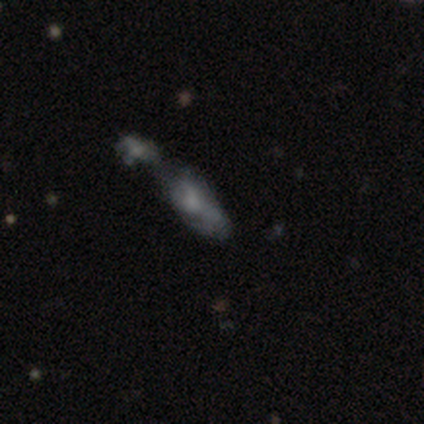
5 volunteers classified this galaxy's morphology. This is clearly a featured or disk galaxy (80%). It is clearly not viewed edge-on (100%). Bar: likely no (75%). Spiral arm pattern: possibly yes (50%, tied with no). Spiral arm count: clearly can't tell (100%). Spiral winding: possibly medium (50%, tied with loose). Central bulge: possibly small (50%). Merging: likely merger (60%).